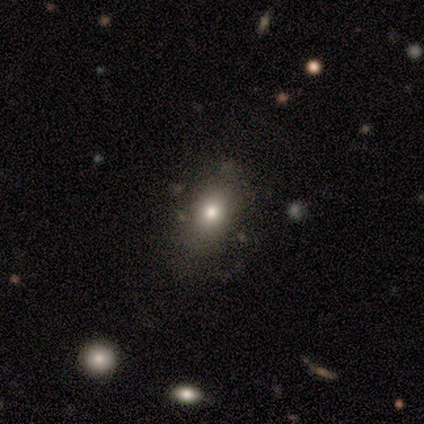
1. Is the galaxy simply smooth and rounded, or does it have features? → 80% smooth, 20% featured or disk, 0% star or artifact.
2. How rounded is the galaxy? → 75% in between, 25% round, 0% cigar-shaped.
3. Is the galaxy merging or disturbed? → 80% none, 20% major disturbance, 0% minor disturbance, 0% merger.